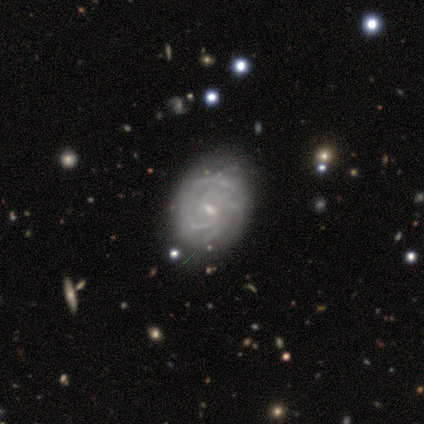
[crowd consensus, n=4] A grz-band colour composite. It shows a featured or disk galaxy (100%) with a strong bar (50%, tied with weak), more than 4 (50%) tight (75%) spiral arms (100%) and a small central bulge (100%). Merging: none (50%, tied with minor disturbance).